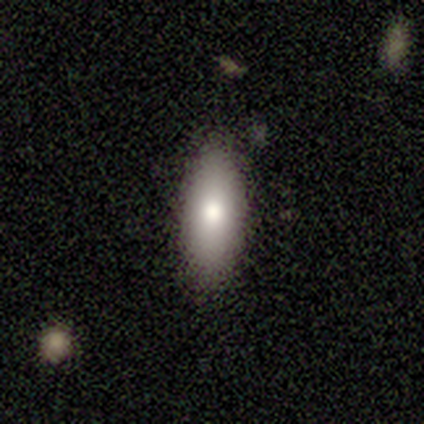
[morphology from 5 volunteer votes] A smooth galaxy with no disk features (60%) that is in between round and cigar-shaped (100%).

Vote fractions:
- Smooth or featured? smooth: 60% / featured or disk: 20% / star or artifact: 20%
- How rounded? in between: 100% / round: 0% / cigar-shaped: 0%
- Merging? none: 100% / minor disturbance: 0% / major disturbance: 0% / merger: 0%